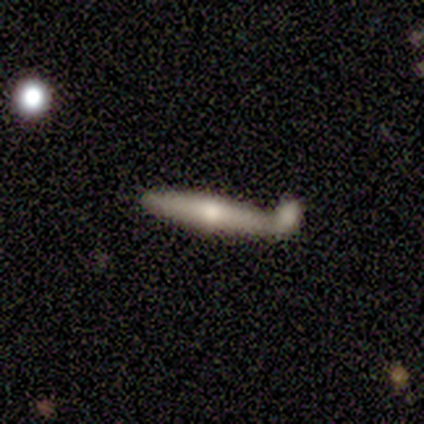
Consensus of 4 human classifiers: Smooth or featured? 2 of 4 (50%, tied with featured or disk) said smooth. How rounded? 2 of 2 (100%) said cigar-shaped. Merging? 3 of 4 (75%) said merger.